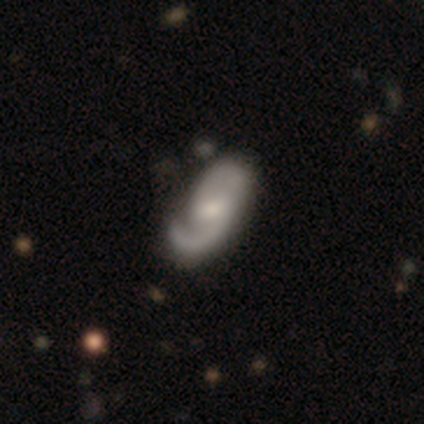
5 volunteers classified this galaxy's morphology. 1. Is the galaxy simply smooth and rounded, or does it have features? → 100% featured or disk, 0% smooth, 0% star or artifact.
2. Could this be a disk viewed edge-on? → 100% no, 0% yes.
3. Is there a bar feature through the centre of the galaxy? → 60% weak, 40% strong, 0% no.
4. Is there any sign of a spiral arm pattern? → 100% yes, 0% no.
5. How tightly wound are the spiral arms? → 60% medium, 20% tight, 20% loose.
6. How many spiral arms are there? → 100% 2, 0% 1, 0% 3, 0% 4, 0% more than 4, 0% can't tell.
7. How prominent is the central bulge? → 80% small, 20% moderate, 0% dominant, 0% large, 0% none.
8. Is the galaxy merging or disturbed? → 60% minor disturbance, 40% none, 0% major disturbance, 0% merger.